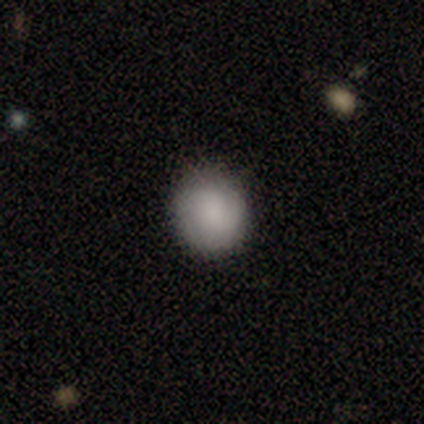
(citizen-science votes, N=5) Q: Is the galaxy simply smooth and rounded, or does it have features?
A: smooth — 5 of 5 (100%).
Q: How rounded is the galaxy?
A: round — 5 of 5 (100%).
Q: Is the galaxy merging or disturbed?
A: none — 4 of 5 (80%).